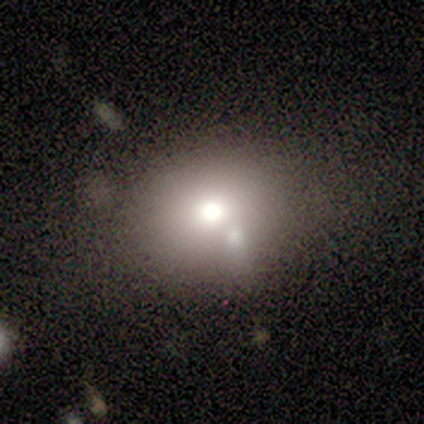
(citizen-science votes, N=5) Smooth or featured? smooth (40%, tied with star or artifact)
How rounded? round (100%)
Merging? none (67%)